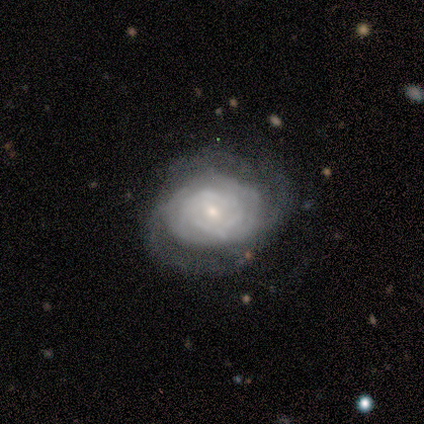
A featured or disk galaxy (100%) with no bar (80%), tight (80%) spiral arms (100%) and a small central bulge (80%). Merging: none (60%).